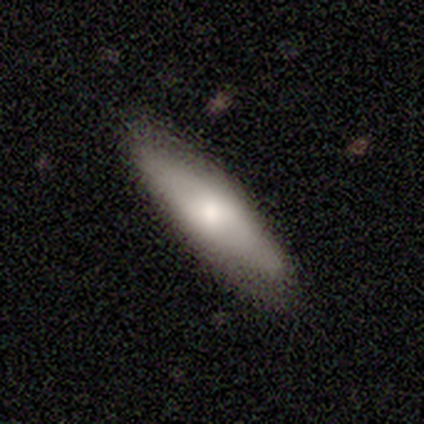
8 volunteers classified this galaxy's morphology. Q: Smooth or featured?
A: smooth (100%)
Q: How rounded?
A: in between (62%); runner-up: cigar-shaped (38%)
Q: Merging?
A: none (100%)